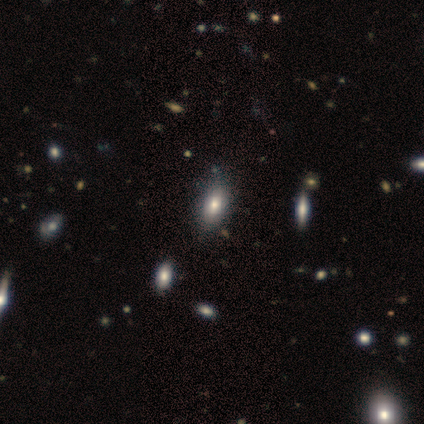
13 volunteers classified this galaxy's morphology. Q: Smooth or featured?
A: smooth (38%); tied with: star or artifact (38%)
Q: How rounded?
A: in between (80%); runner-up: round (20%)
Q: Merging?
A: none (100%)